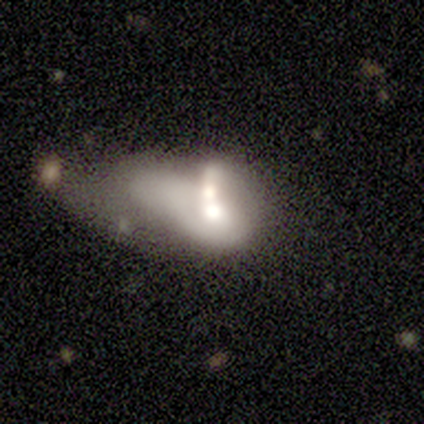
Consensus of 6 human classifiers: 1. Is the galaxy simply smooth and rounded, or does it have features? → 67% featured or disk, 33% smooth, 0% star or artifact.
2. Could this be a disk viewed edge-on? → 100% no, 0% yes.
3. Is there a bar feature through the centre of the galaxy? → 100% no, 0% strong, 0% weak.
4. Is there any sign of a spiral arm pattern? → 75% no, 25% yes.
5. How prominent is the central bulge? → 25% dominant (tied), 25% large (tied), 25% moderate (tied), 25% small (tied), 0% none.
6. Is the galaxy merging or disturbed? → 83% merger, 17% major disturbance, 0% none, 0% minor disturbance.